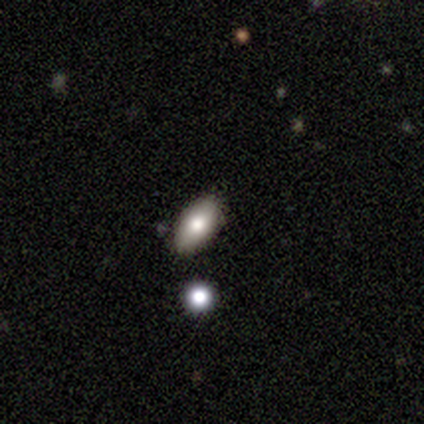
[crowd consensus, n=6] Q: Smooth or featured?
A: smooth (50%); runner-up: featured or disk (33%)
Q: How rounded?
A: in between (100%)
Q: Merging?
A: none (100%)